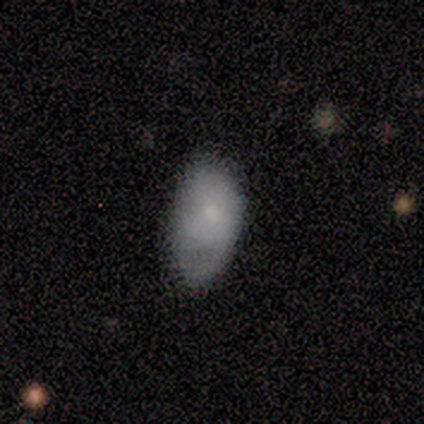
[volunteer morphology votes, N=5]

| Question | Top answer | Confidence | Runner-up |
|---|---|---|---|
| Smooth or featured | smooth | 100% | — |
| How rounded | in between | 80% | cigar-shaped (20%) |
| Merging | minor disturbance | 60% | none (20%) |